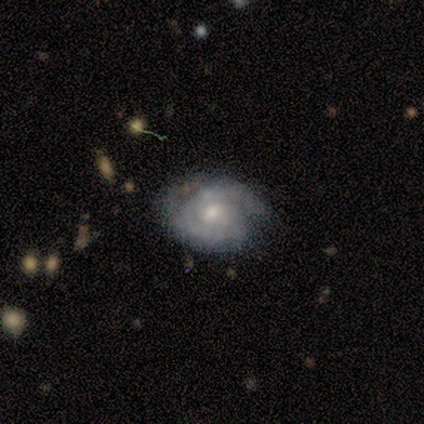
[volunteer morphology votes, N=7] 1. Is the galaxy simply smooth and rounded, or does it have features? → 86% featured or disk, 14% smooth, 0% star or artifact.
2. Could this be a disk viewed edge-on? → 100% no, 0% yes.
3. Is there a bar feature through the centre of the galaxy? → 83% no, 17% weak, 0% strong.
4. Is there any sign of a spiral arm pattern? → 83% yes, 17% no.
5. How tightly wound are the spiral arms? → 60% tight, 40% medium, 0% loose.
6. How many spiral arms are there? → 80% 2, 20% 1, 0% 3, 0% 4, 0% more than 4, 0% can't tell.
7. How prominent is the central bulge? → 50% moderate (tied), 50% small (tied), 0% dominant, 0% large, 0% none.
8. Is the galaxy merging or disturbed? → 86% none, 14% minor disturbance, 0% major disturbance, 0% merger.